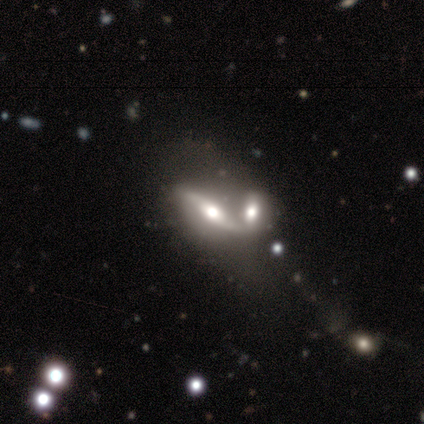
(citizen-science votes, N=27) Smooth or featured? 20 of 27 (74%) said featured or disk. Edge-on disk? 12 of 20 (60%) said yes. Edge-on bulge? 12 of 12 (100%) said rounded. Merging? 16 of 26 (62%) said merger.